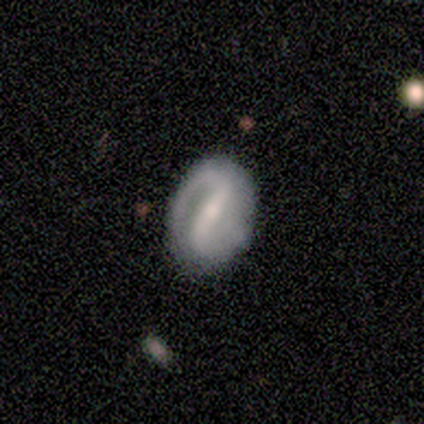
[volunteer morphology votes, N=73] smooth_or_featured: featured or disk (p=0.73) [alt: smooth p=0.25]
disk_edge_on: no (p=1.00)
bar: strong (p=0.79) [alt: weak p=0.17]
has_spiral_arms: yes (p=0.98) [alt: no p=0.02]
spiral_winding: tight (p=0.38) [alt: medium p=0.35]
spiral_arm_count: 2 (p=0.83) [alt: 1 p=0.13]
bulge_size: small (p=0.47) [alt: moderate p=0.43]
merging: none (p=0.72) [alt: minor disturbance p=0.21]